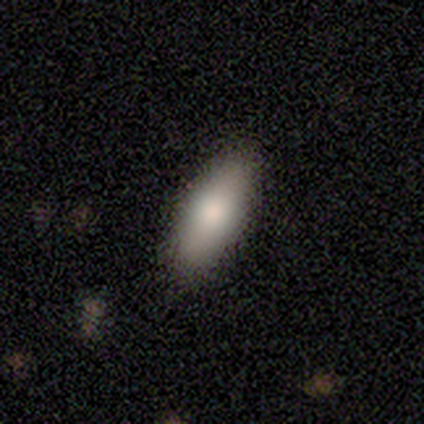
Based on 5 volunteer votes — This is clearly a smooth galaxy (100%). How rounded: clearly in between (80%). Merging: clearly none (80%).